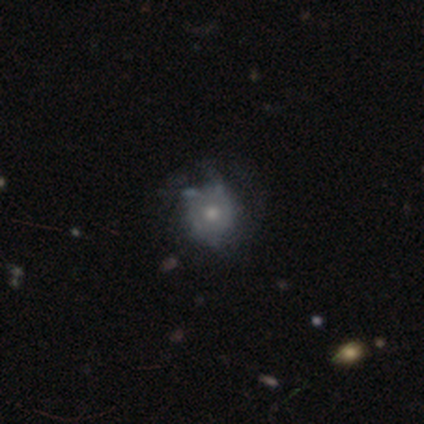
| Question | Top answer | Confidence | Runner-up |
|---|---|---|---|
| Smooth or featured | featured or disk | 100% | — |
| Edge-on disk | no | 100% | — |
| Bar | no | 100% | — |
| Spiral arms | yes | 50% | tied: no (50%) |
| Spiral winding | tight | 100% | — |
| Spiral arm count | can't tell | 100% | — |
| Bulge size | moderate | 50% | small (33%) |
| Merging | none | 33% | tied: minor disturbance (33%) |